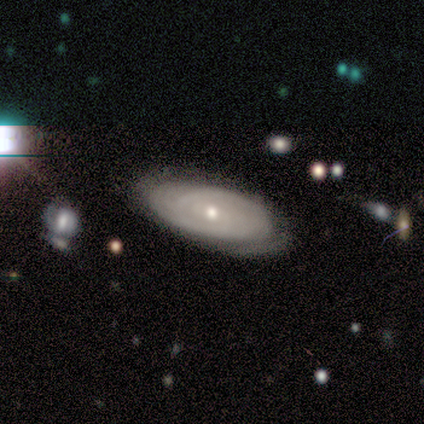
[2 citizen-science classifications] smooth_or_featured: featured or disk (p=1.00)
disk_edge_on: yes (p=0.50) [tied with: no p=0.50]
edge_on_bulge: rounded (p=1.00)
merging: none (p=1.00)